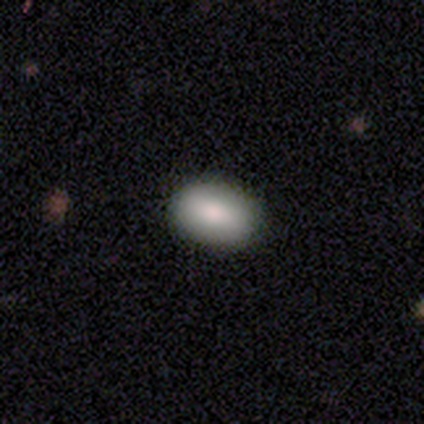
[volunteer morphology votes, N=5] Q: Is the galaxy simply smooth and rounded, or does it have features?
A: smooth — 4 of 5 (80%).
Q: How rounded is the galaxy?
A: in between — 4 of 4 (100%).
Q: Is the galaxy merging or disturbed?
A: none — 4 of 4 (100%).